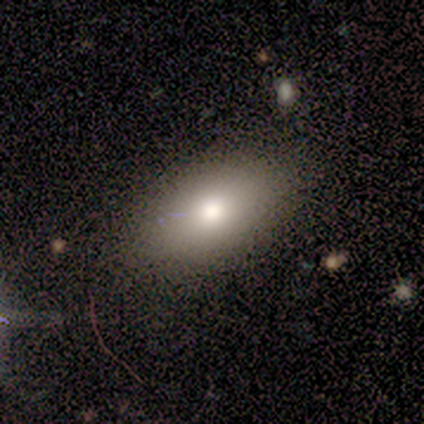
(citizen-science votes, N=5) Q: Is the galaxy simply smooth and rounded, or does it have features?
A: smooth — 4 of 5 (80%).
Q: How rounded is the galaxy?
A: in between — 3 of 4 (75%).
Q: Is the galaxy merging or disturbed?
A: none — 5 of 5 (100%).